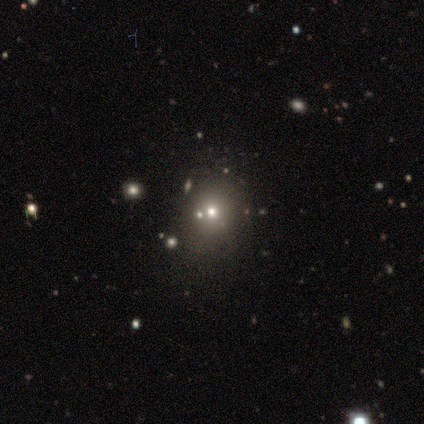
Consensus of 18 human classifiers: smooth 44%, star or artifact 33%, featured or disk 22%. Down the decision tree: how rounded — round (62%); merging — none (67%).